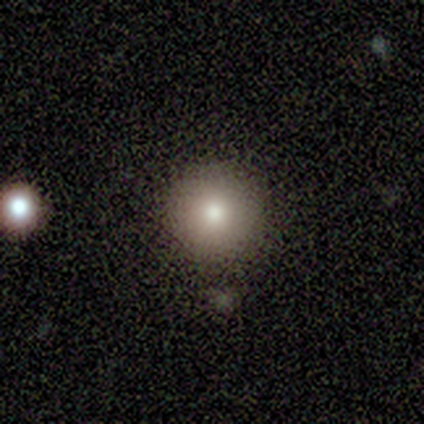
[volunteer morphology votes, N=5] A smooth galaxy with no disk features (80%) that is round (100%). Merging: none (100%).